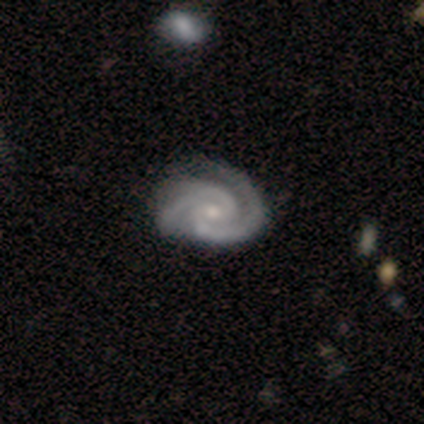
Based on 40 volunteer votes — Q: Smooth or featured?
A: featured or disk (98%); runner-up: smooth (2%)
Q: Edge-on disk?
A: no (100%)
Q: Bar?
A: no (56%); runner-up: weak (38%)
Q: Spiral arms?
A: yes (97%); runner-up: no (3%)
Q: Spiral winding?
A: tight (50%); runner-up: medium (47%)
Q: Spiral arm count?
A: 2 (74%); runner-up: 3 (18%)
Q: Bulge size?
A: small (54%); runner-up: moderate (41%)
Q: Merging?
A: none (65%); runner-up: minor disturbance (15%)